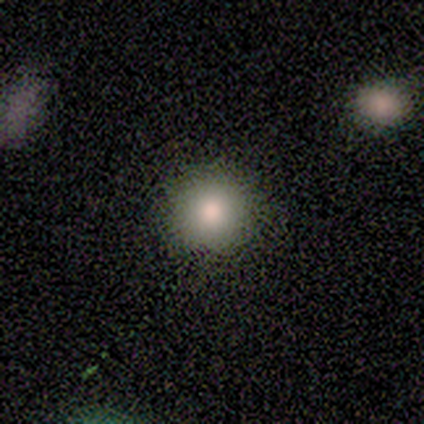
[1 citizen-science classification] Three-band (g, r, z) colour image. It shows a smooth galaxy with no disk features (100%) that is round (100%). Merging: none (100%).